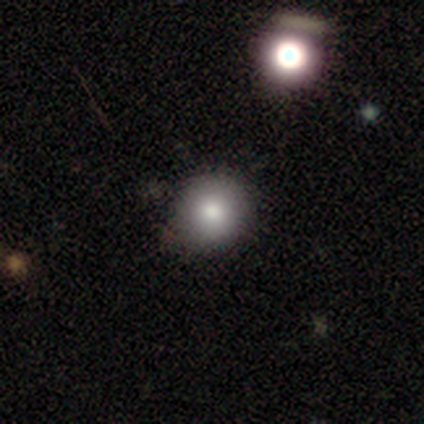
A smooth galaxy with no disk features (90%) that is round (92%).

Vote fractions:
- Smooth or featured? smooth: 90% / star or artifact: 8% / featured or disk: 2%
- How rounded? round: 92% / in between: 8% / cigar-shaped: 0%
- Merging? none: 89% / minor disturbance: 8% / major disturbance: 3% / merger: 0%